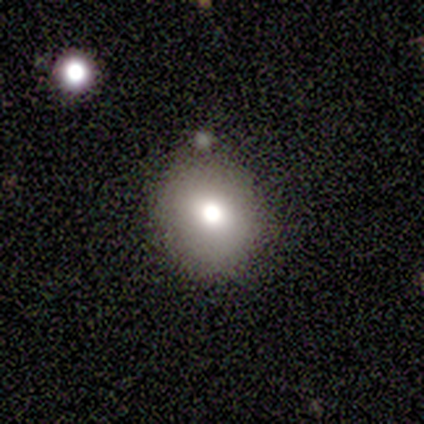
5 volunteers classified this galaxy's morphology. This appears to be a smooth galaxy with no disk features (100%) that is round (80%). Merging: none (60%).